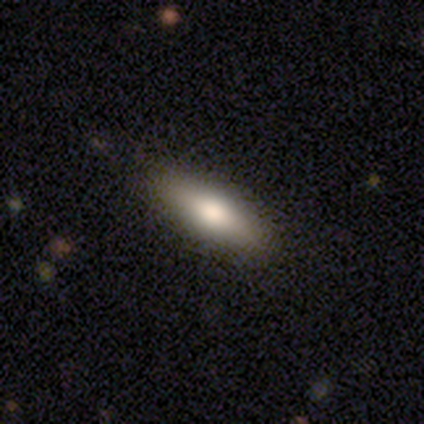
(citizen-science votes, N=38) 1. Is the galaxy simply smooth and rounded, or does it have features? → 76% smooth, 18% featured or disk, 5% star or artifact.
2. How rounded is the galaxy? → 66% in between, 34% cigar-shaped, 0% round.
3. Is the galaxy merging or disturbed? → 97% none, 3% minor disturbance, 0% major disturbance, 0% merger.